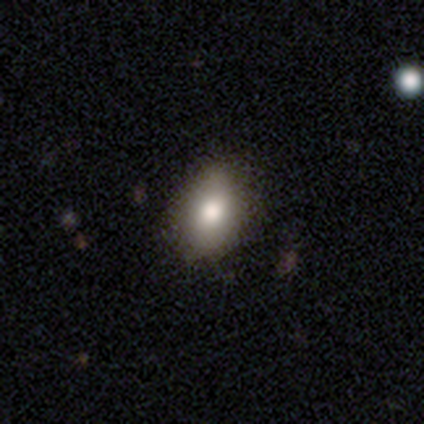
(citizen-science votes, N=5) This appears to be a smooth galaxy with no disk features (80%) that is in between round and cigar-shaped (75%). Merging: none (60%).